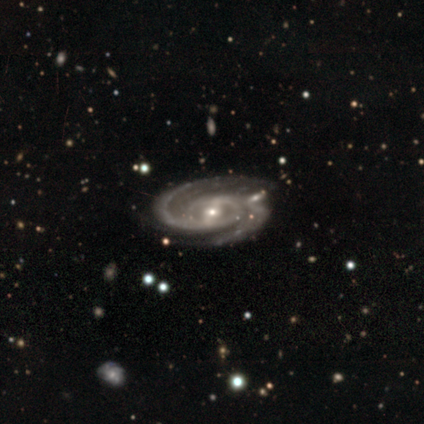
Overall: featured or disk (100%). Edge-on disk: no (100%). Bar: strong (100%). Spiral arms: yes (100%). Spiral arm count: 2 (100%). Spiral winding: tight (100%). Bulge size: small (100%). Merging: none (100%).